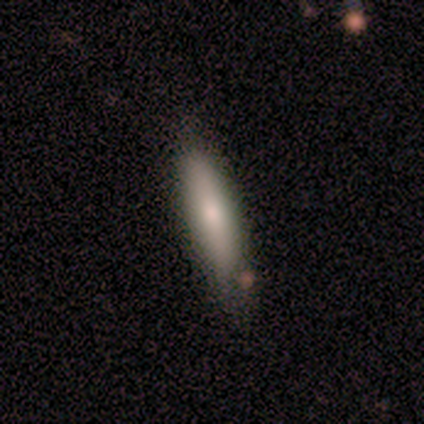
Smooth or featured: smooth — 67% (featured or disk — 33%)
How rounded: cigar-shaped — 100%
Merging: none — 83% (merger — 17%)